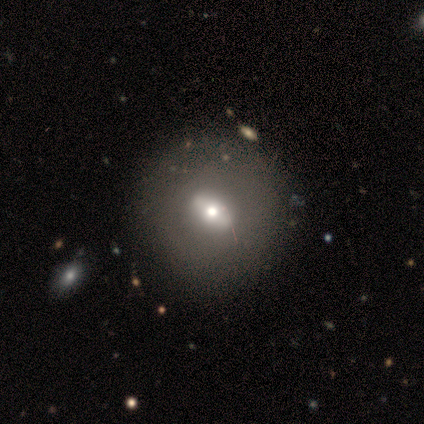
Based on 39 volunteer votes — Overall: featured or disk (56%; smooth 38%). Edge-on disk: no (100%). Bar: no (41%; strong 36%). Spiral arms: no (95%). Bulge size: moderate (59%; small 23%). Merging: none (54%).